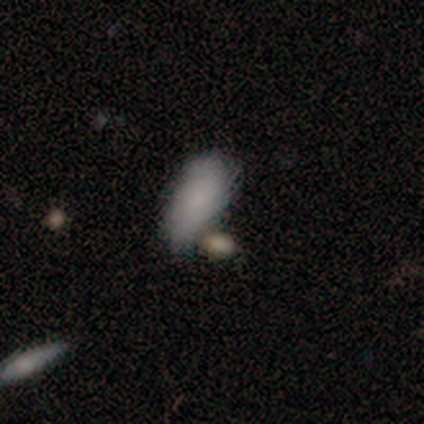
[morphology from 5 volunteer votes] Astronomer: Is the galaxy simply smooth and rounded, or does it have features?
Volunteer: smooth — 80%.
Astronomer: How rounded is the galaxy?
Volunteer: in between — 75%.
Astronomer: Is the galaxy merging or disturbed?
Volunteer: minor disturbance — 60%.